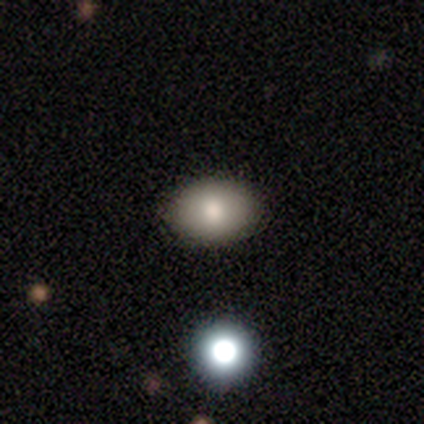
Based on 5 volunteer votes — Smooth or featured?
  - smooth: 100% *
  - featured or disk: 0%
  - star or artifact: 0%
How rounded?
  - in between: 100% *
  - round: 0%
  - cigar-shaped: 0%
Merging?
  - none: 100% *
  - minor disturbance: 0%
  - major disturbance: 0%
  - merger: 0%